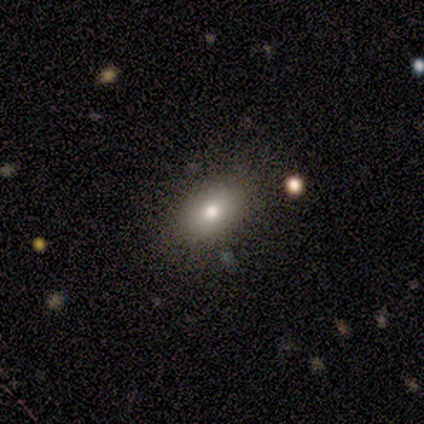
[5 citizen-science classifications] A smooth galaxy with no disk features (60%) that is in between round and cigar-shaped (100%).

Vote fractions:
- Smooth or featured? smooth: 60% / star or artifact: 40% / featured or disk: 0%
- How rounded? in between: 100% / round: 0% / cigar-shaped: 0%
- Merging? none: 67% / minor disturbance: 33% / major disturbance: 0% / merger: 0%